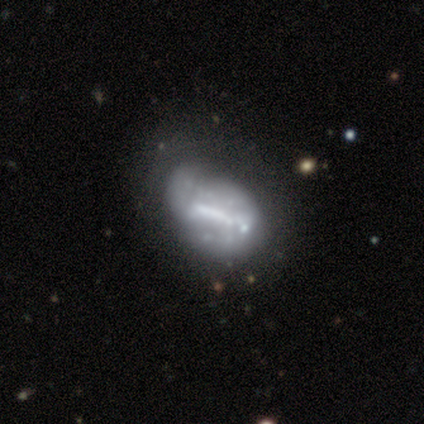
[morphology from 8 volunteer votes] Q: Smooth or featured?
A: featured or disk (88%); runner-up: smooth (12%)
Q: Edge-on disk?
A: no (86%); runner-up: yes (14%)
Q: Bar?
A: strong (33%); tied with: weak (33%); no (33%)
Q: Spiral arms?
A: yes (67%); runner-up: no (33%)
Q: Spiral winding?
A: medium (50%); runner-up: tight (25%)
Q: Spiral arm count?
A: 2 (50%); tied with: can't tell (50%)
Q: Bulge size?
A: moderate (50%); runner-up: none (33%)
Q: Merging?
A: minor disturbance (50%); runner-up: none (38%)